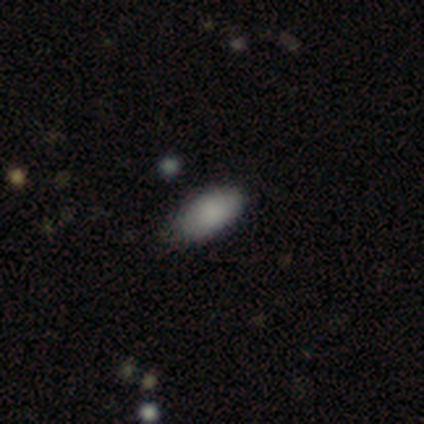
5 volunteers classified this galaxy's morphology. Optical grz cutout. It shows a smooth galaxy with no disk features (100%) that is in between round and cigar-shaped (100%). Merging: none (80%).